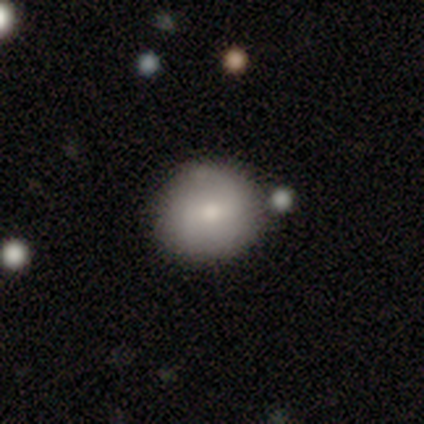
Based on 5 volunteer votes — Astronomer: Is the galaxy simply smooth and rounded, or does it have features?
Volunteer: smooth — 60%.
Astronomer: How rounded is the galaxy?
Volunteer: round — 67%.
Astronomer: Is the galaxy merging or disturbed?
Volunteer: none — 50%, tied with minor disturbance at 50%.